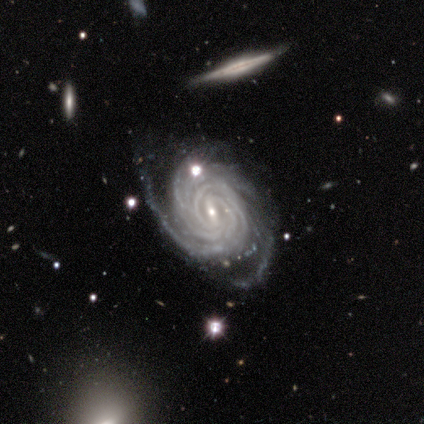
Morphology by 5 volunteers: smooth-or-featured: featured or disk: 100% | smooth: 0% | star or artifact: 0%
  disk-edge-on: no: 100% | yes: 0%
    bar: weak: 80% | strong: 20% | no: 0%
    has-spiral-arms: yes: 100% | no: 0%
      spiral-winding: tight: 80% | medium: 20% | loose: 0%
      spiral-arm-count: 3: 40% (tied) | more than 4: 40% (tied) | 4: 20% | 1: 0% | 2: 0% | can't tell: 0%
    bulge-size: small: 80% | moderate: 20% | dominant: 0% | large: 0% | none: 0%
  merging: none: 80% | minor disturbance: 20% | major disturbance: 0% | merger: 0%